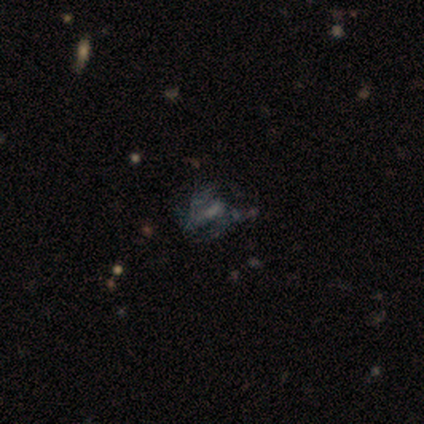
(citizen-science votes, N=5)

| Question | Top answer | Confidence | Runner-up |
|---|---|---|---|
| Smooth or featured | featured or disk | 60% | star or artifact (40%) |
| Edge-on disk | no | 100% | — |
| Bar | weak | 67% | no (33%) |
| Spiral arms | yes | 67% | no (33%) |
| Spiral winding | tight | 50% | tied: medium (50%) |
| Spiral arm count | can't tell | 100% | — |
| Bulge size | moderate | 67% | none (33%) |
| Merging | major disturbance | 100% | — |